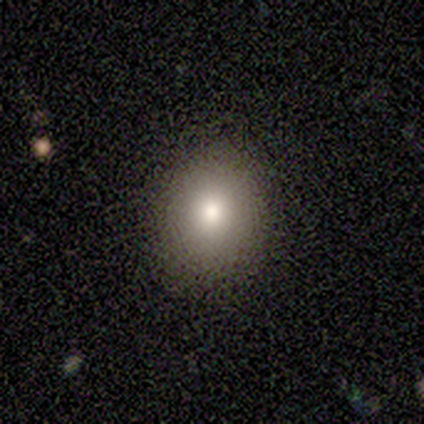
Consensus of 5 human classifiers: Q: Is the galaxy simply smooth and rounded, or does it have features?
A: smooth — 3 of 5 (60%).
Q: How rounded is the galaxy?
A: round — 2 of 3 (67%).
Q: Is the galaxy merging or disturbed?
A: none — 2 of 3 (67%).